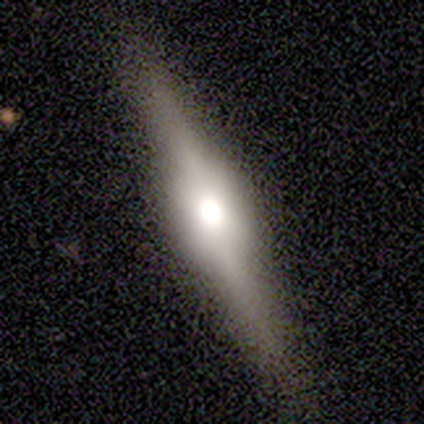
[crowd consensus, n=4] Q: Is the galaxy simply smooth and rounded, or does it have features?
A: featured or disk — 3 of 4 (75%).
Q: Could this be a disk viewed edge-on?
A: yes — 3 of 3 (100%).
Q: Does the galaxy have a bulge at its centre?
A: rounded — 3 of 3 (100%).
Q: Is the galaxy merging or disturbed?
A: none — 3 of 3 (100%).